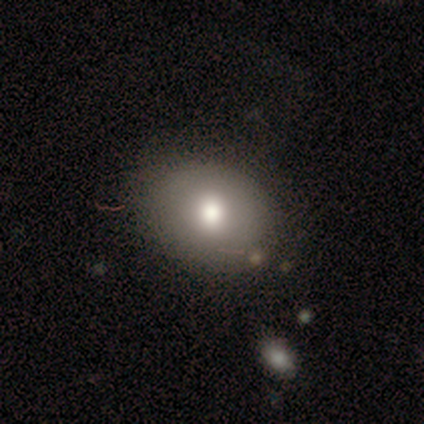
A smooth galaxy with no disk features (80%) that is in between round and cigar-shaped (75%). Merging: none (100%).